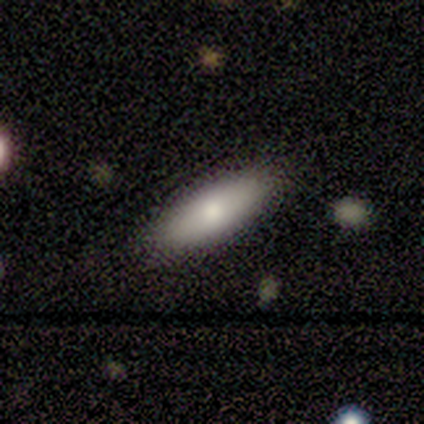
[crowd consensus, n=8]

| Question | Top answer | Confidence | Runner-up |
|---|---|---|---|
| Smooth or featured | smooth | 75% | featured or disk (25%) |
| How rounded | in between | 50% | tied: cigar-shaped (50%) |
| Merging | none | 75% | minor disturbance (12%) |